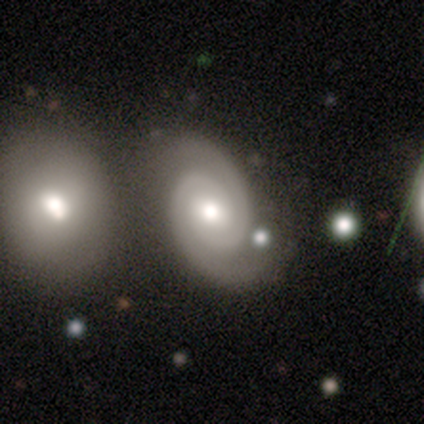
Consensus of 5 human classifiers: Q: Smooth or featured?
A: featured or disk (100%)
Q: Edge-on disk?
A: no (100%)
Q: Bar?
A: no (80%); runner-up: weak (20%)
Q: Spiral arms?
A: yes (100%)
Q: Spiral winding?
A: tight (100%)
Q: Spiral arm count?
A: 2 (100%)
Q: Bulge size?
A: moderate (80%); runner-up: large (20%)
Q: Merging?
A: none (100%)